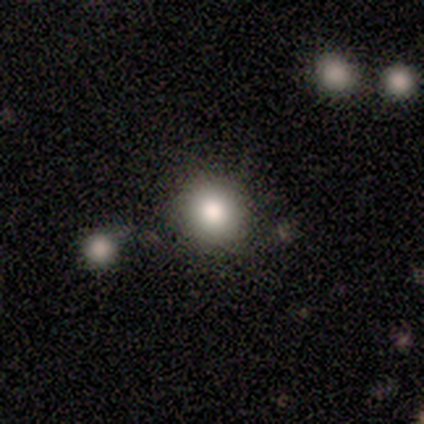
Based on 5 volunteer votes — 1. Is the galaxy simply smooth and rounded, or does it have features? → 80% smooth, 20% featured or disk, 0% star or artifact.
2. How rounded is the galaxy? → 100% round, 0% in between, 0% cigar-shaped.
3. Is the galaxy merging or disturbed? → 60% none, 40% minor disturbance, 0% major disturbance, 0% merger.